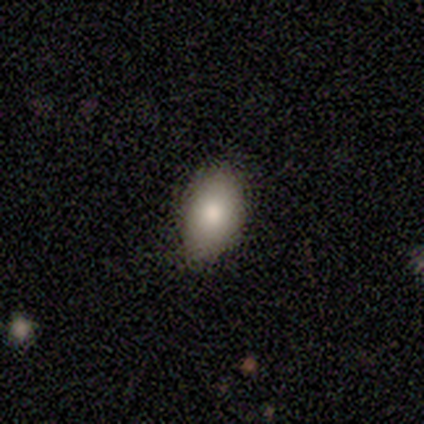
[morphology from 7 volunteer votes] This appears to be a smooth galaxy with no disk features (86%) that is in between round and cigar-shaped (100%). Merging: none (71%).